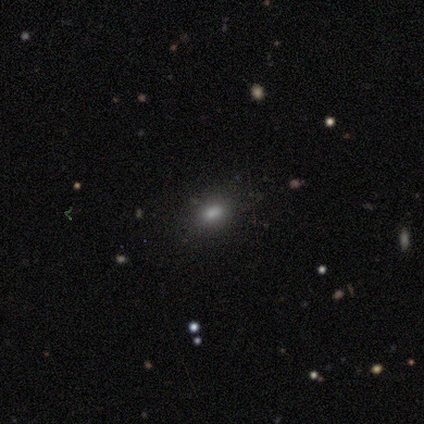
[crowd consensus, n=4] smooth-or-featured: smooth: 75% | star or artifact: 25% | featured or disk: 0%
  how-rounded: in between: 67% | round: 33% | cigar-shaped: 0%
  merging: none: 67% | minor disturbance: 33% | major disturbance: 0% | merger: 0%